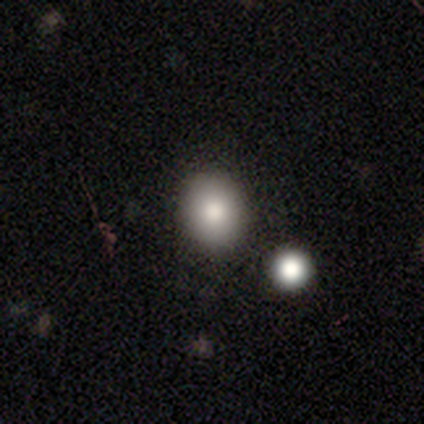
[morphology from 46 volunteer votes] Overall: smooth (76%). How rounded: round (83%). Merging: none (78%).